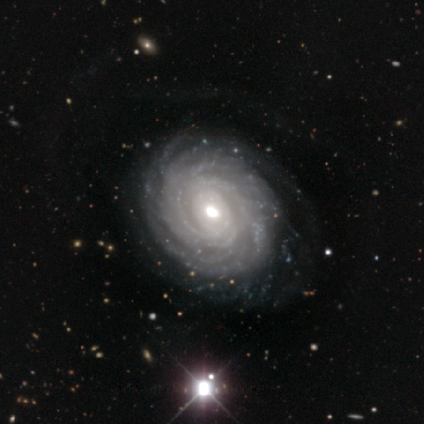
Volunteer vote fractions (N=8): Overall: featured or disk (100%). Edge-on disk: no (100%). Bar: no (88%). Spiral arms: yes (100%). Spiral arm count: can't tell (50%; more than 4 38%). Spiral winding: tight (88%). Bulge size: moderate (88%). Merging: none (100%).